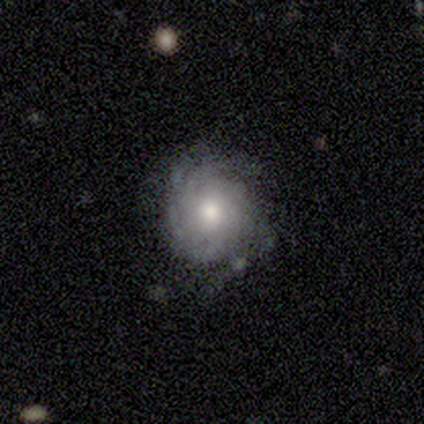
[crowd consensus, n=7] Morphology: type=featured or disk (57%); edge-on=no (75%); bar=no (100%); spiral arms=yes (100%); winding=tight (100%); arm count=can't tell (100%); bulge=moderate (100%); merging=none (60%).